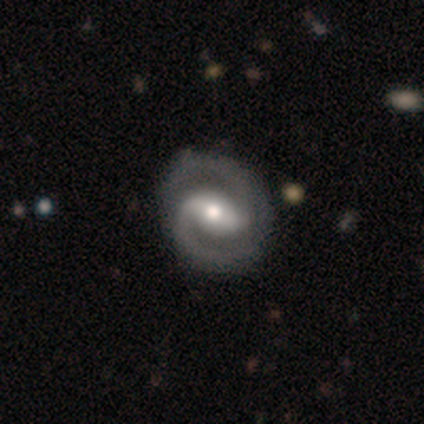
This appears to be a featured or disk galaxy (100%) with a weak bar (60%), 2 (60%) medium (60%) spiral arms (100%) and a moderate central bulge (100%). Merging: none (100%).